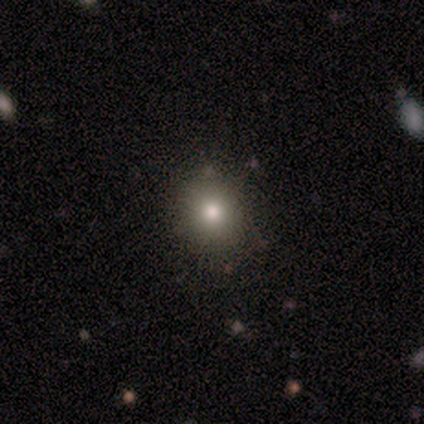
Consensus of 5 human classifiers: Smooth or featured?
  - featured or disk: 40% * (tied)
  - star or artifact: 40% * (tied)
  - smooth: 20%
Edge-on disk?
  - no: 100% *
  - yes: 0%
Bar?
  - no: 100% *
  - strong: 0%
  - weak: 0%
Spiral arms?
  - no: 100% *
  - yes: 0%
Bulge size?
  - moderate: 100% *
  - dominant: 0%
  - large: 0%
  - small: 0%
  - none: 0%
Merging?
  - none: 100% *
  - minor disturbance: 0%
  - major disturbance: 0%
  - merger: 0%